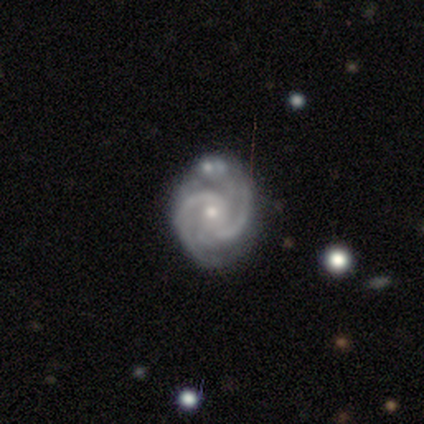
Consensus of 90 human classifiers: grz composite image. It shows a featured or disk galaxy (89%) with no bar (64%), 2 (68%) medium (51%) spiral arms (99%) and a small central bulge (64%). Merging: none (69%).